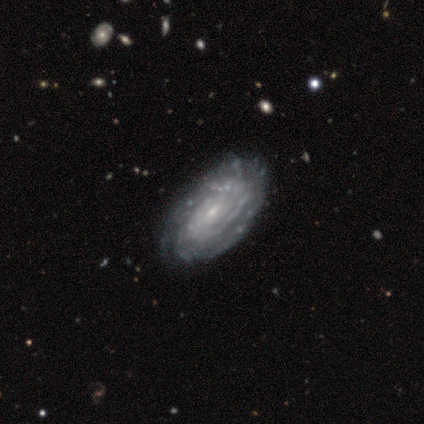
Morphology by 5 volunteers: Q: Smooth or featured?
A: featured or disk (100%)
Q: Edge-on disk?
A: no (100%)
Q: Bar?
A: weak (60%); runner-up: no (40%)
Q: Spiral arms?
A: yes (100%)
Q: Spiral winding?
A: tight (80%); runner-up: medium (20%)
Q: Spiral arm count?
A: can't tell (80%); runner-up: 4 (20%)
Q: Bulge size?
A: small (100%)
Q: Merging?
A: none (80%); runner-up: minor disturbance (20%)